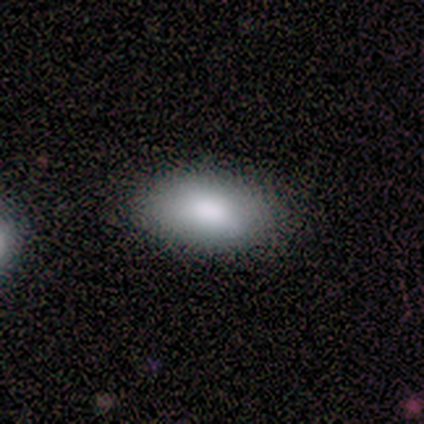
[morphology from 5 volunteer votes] This is clearly a smooth galaxy (100%). How rounded: clearly in between (80%). Merging: clearly none (80%).